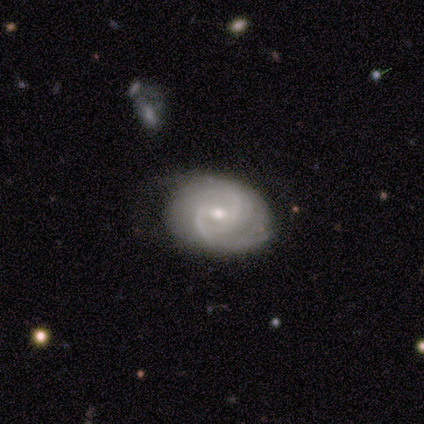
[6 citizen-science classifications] Overall: featured or disk (67%; star or artifact 33%). Edge-on disk: no (100%). Bar: no (75%). Spiral arms: yes (100%). Spiral arm count: 2 (75%). Spiral winding: tight (50%, tied with medium). Bulge size: moderate (50%; small 25%). Merging: none (100%).